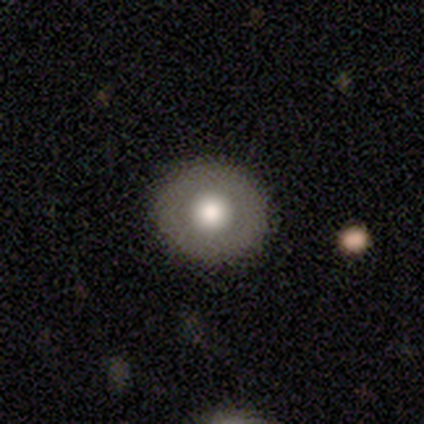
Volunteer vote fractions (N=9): Smooth or featured? 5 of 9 (56%) said smooth. How rounded? 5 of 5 (100%) said round. Merging? 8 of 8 (100%) said none.